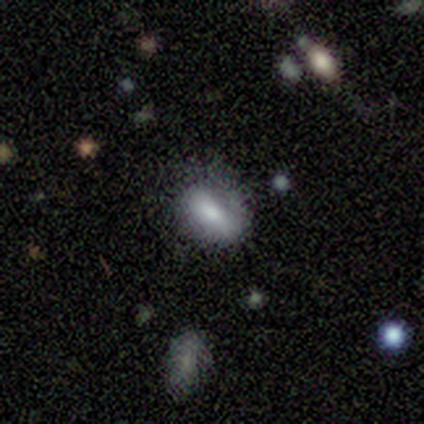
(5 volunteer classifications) A featured or disk galaxy (60%) with a strong bar (33%, tied with weak and no), no spiral arms (67%) and a small central bulge (67%). Merging: none (80%).